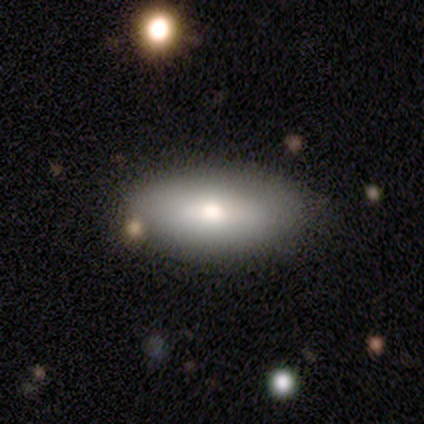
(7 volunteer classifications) Smooth or featured: featured or disk — 71% (smooth — 29%)
Edge-on disk: yes — 60% (no — 40%)
Edge-on bulge: rounded — 67% (none — 33%)
Merging: none — 57% (minor disturbance — 14%)